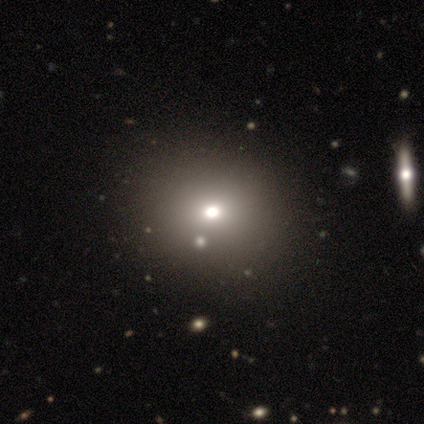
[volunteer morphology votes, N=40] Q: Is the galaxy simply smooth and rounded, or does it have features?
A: smooth — 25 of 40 (62%).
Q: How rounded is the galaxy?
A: round — 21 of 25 (84%).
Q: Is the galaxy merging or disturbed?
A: none — 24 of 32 (75%).